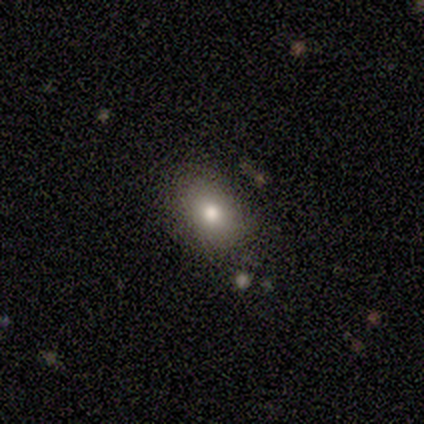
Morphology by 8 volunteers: Smooth or featured? 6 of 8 (75%) said smooth. How rounded? 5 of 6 (83%) said in between. Merging? 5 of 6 (83%) said none.